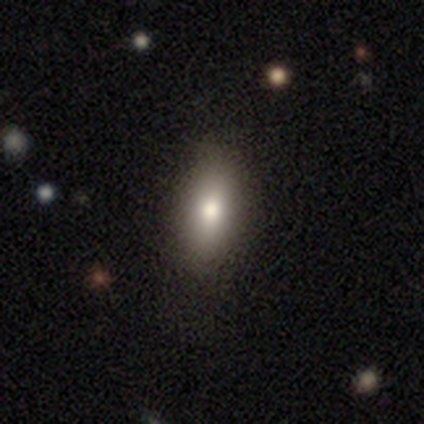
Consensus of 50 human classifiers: Smooth or featured? 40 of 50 (80%) said smooth. How rounded? 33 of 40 (82%) said in between. Merging? 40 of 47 (85%) said none.